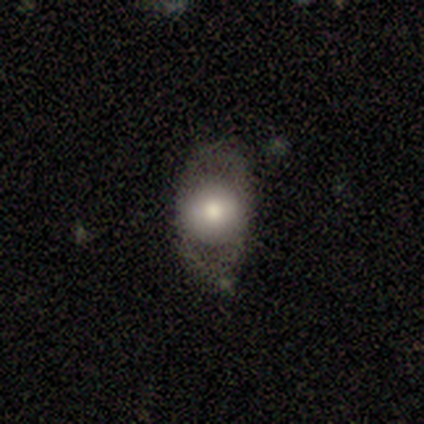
Q: Smooth or featured?
A: smooth (40%); tied with: featured or disk (40%)
Q: How rounded?
A: in between (100%)
Q: Merging?
A: none (75%); runner-up: minor disturbance (25%)